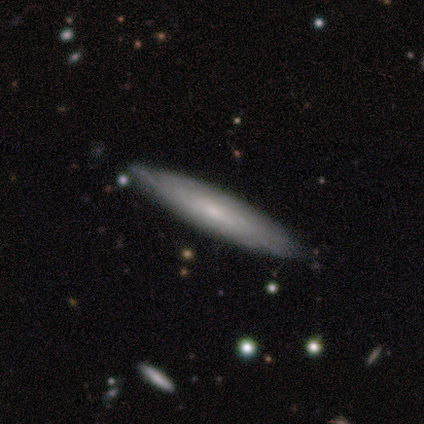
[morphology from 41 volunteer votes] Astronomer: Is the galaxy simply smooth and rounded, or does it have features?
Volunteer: featured or disk — 51% (runner-up: smooth, 44%).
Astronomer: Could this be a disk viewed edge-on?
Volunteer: yes — 52% (runner-up: no, 48%).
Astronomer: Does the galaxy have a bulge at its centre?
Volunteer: none — 64%.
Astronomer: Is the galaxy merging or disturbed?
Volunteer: none — 79%.